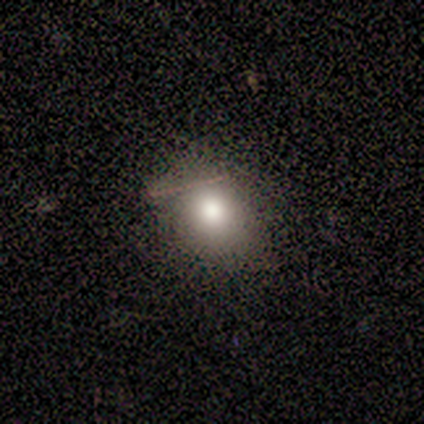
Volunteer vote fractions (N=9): Q: Smooth or featured?
A: smooth (100%)
Q: How rounded?
A: round (56%); runner-up: in between (44%)
Q: Merging?
A: none (78%); runner-up: minor disturbance (22%)